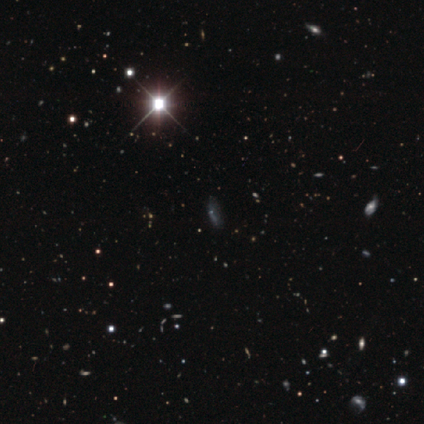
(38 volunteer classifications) This appears to be a star or artifact, not a galaxy (76%).